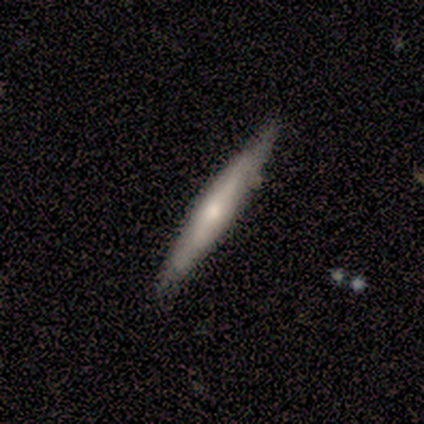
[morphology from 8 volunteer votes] featured or disk 88%, smooth 12%, star or artifact 0%. Down the decision tree: edge-on disk — yes (86%); edge-on bulge — rounded (67%); merging — none (50%).